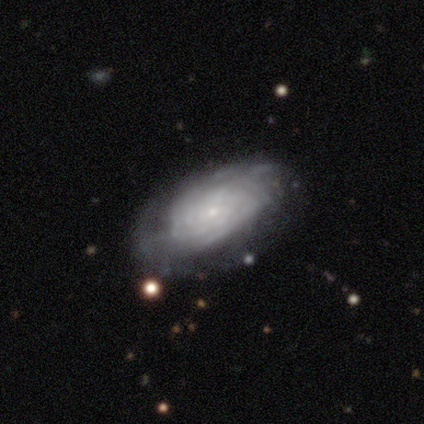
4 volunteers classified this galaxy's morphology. type=featured or disk (100%); edge-on=no (100%); bar=no (100%); spiral arms=yes (75%); winding=tight (67%); arm count=3 (33%, tied with 4 and can't tell); bulge=small (100%); merging=none (100%).